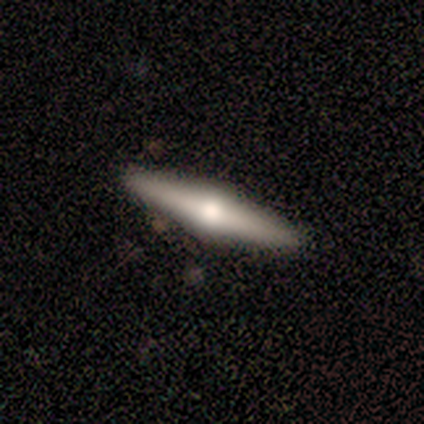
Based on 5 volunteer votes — This appears to be a featured or disk galaxy (60%) viewed edge-on (100%) with a rounded central bulge (100%). Merging: none (80%).